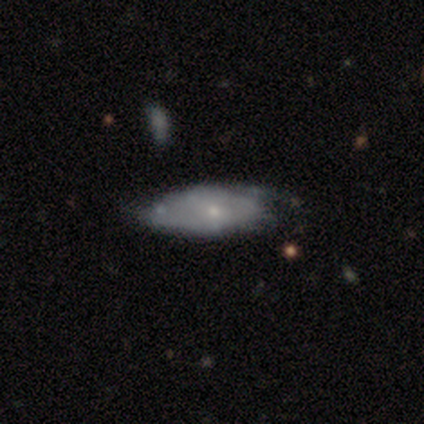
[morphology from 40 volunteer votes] This appears to be a featured or disk galaxy (68%) with no bar (79%), loose (42%) spiral arms (50%, tied with no) and a small central bulge (71%). Merging: none (46%).